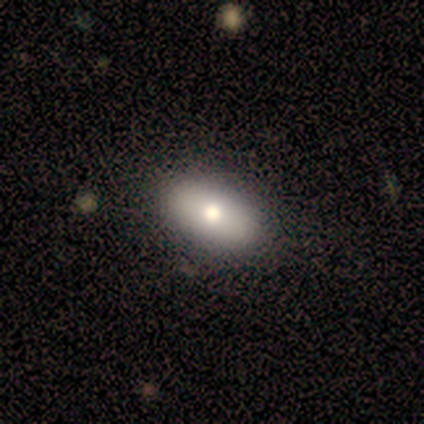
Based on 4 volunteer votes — smooth_or_featured: featured or disk (p=0.75) [alt: smooth p=0.25]
disk_edge_on: no (p=1.00)
bar: no (p=1.00)
has_spiral_arms: no (p=1.00)
bulge_size: moderate (p=0.67) [alt: large p=0.33]
merging: none (p=1.00)